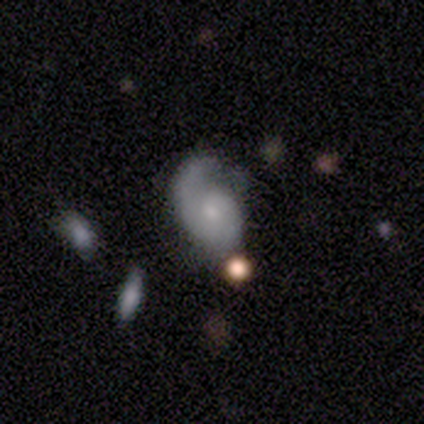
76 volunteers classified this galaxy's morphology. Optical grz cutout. It shows a featured or disk galaxy (78%) with no bar (76%), 1 (64%) medium (42%) spiral arms (86%) and a small central bulge (53%). Merging: none (32%).